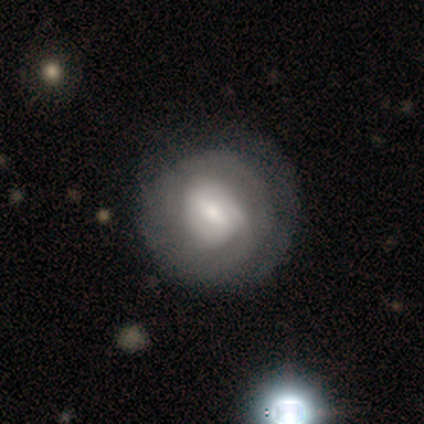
This is likely a smooth galaxy (60%). How rounded: clearly round (100%). Merging: clearly none (100%).